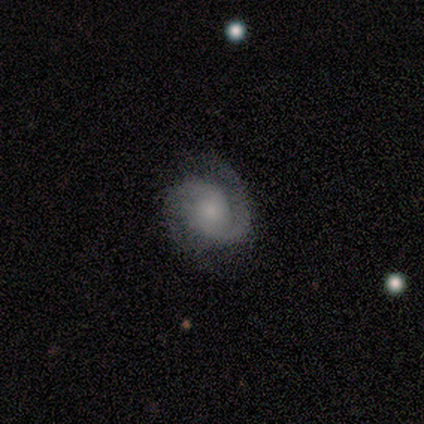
This is clearly a featured or disk galaxy (80%). It is likely not viewed edge-on (75%). Bar: likely no (67%). Spiral arm pattern: clearly yes (100%). Spiral arm count: clearly 2 (100%). Spiral winding: likely medium (67%). Central bulge: possibly small (50%). Merging: likely none (70%).